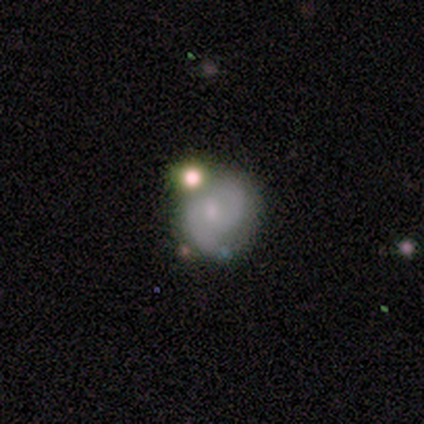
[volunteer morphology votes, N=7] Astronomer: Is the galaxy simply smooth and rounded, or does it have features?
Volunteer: featured or disk — 43% (runner-up: smooth, 29%).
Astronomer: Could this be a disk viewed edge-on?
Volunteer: no — 100%.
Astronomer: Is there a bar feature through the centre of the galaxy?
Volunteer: no — 67%.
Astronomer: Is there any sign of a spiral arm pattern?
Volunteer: yes — 67%.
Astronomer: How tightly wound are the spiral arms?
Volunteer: medium — 100%.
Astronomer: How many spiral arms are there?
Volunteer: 2 — 100%.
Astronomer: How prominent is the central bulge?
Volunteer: moderate — 67%.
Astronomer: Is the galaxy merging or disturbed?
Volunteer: none — 60% (runner-up: merger, 40%).